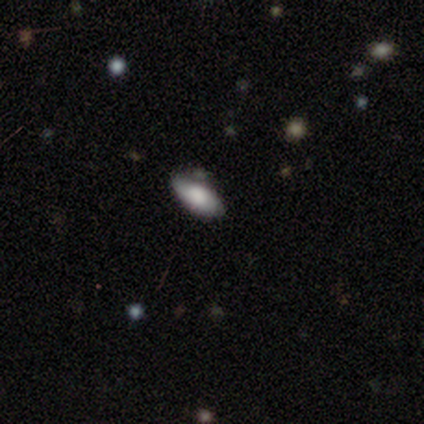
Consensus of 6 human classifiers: Smooth or featured?
  - smooth: 67% *
  - featured or disk: 33%
  - star or artifact: 0%
How rounded?
  - in between: 100% *
  - round: 0%
  - cigar-shaped: 0%
Merging?
  - none: 83% *
  - merger: 17%
  - minor disturbance: 0%
  - major disturbance: 0%